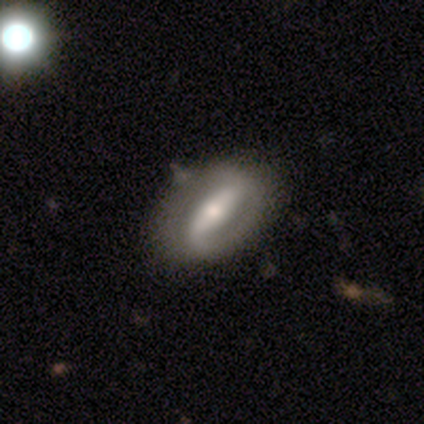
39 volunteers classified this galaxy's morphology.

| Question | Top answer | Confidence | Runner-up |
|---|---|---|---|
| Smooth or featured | featured or disk | 77% | smooth (21%) |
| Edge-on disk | no | 97% | yes (3%) |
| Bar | strong | 66% | weak (24%) |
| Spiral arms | yes | 76% | no (24%) |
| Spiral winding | loose | 41% | tight (36%) |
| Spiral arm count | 2 | 77% | 1 (18%) |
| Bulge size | moderate | 48% | small (21%) |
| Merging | none | 71% | minor disturbance (24%) |